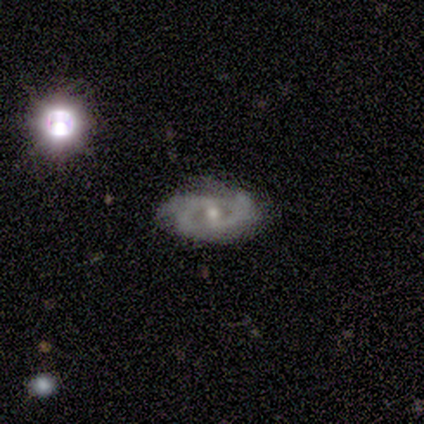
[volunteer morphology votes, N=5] Volunteers were most divided on "spiral arms" (2-way tie): yes: 50%, no: 50%; "spiral arm count" (2-way tie): 3: 50%, can't tell: 50%, 1: 0%, 2: 0%, 4: 0%, more than 4: 0%; "bulge size" (2-way tie): moderate: 50%, small: 50%, dominant: 0%, large: 0%, none: 0%. More confident: edge-on disk — no (100%); spiral winding — medium (100%); smooth or featured — featured or disk (80%); bar — no (75%); merging — none (75%).